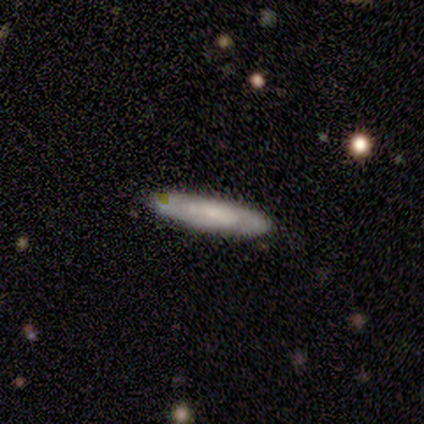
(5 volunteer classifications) A featured or disk galaxy (60%) with no bar (100%), 2 (100%) medium (50%, tied with loose) spiral arms (100%) and a moderate central bulge (50%, tied with small).

Vote fractions:
- Smooth or featured? featured or disk: 60% / smooth: 40% / star or artifact: 0%
- Edge-on disk? no: 67% / yes: 33%
- Bar? no: 100% / strong: 0% / weak: 0%
- Spiral arms? yes: 100% / no: 0%
- Spiral winding? medium: 50% (tied) / loose: 50% (tied) / tight: 0%
- Spiral arm count? 2: 100% / 1: 0% / 3: 0% / 4: 0% / more than 4: 0% / can't tell: 0%
- Bulge size? moderate: 50% (tied) / small: 50% (tied) / dominant: 0% / large: 0% / none: 0%
- Merging? none: 80% / minor disturbance: 20% / major disturbance: 0% / merger: 0%